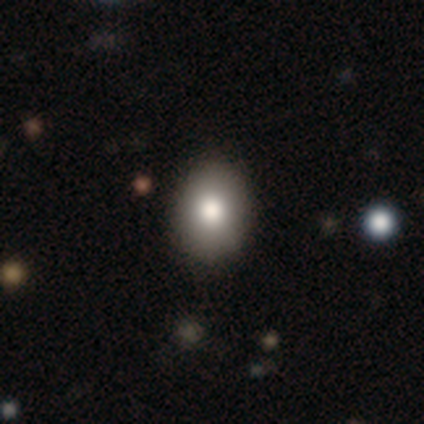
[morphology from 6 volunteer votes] Smooth or featured?
  - smooth: 50% * (tied)
  - featured or disk: 50% * (tied)
  - star or artifact: 0%
How rounded?
  - in between: 100% *
  - round: 0%
  - cigar-shaped: 0%
Merging?
  - none: 67% *
  - minor disturbance: 33%
  - major disturbance: 0%
  - merger: 0%